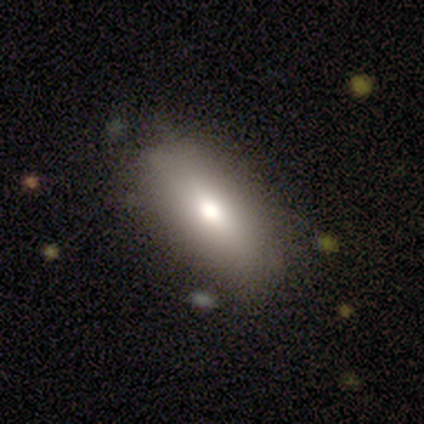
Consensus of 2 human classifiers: This is clearly a smooth galaxy (100%). How rounded: clearly in between (100%). Merging: clearly none (100%).